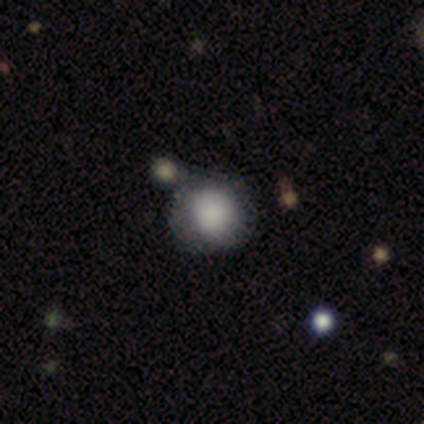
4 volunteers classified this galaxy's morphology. Q: Smooth or featured?
A: smooth (50%); runner-up: featured or disk (25%)
Q: How rounded?
A: round (100%)
Q: Merging?
A: none (67%); runner-up: major disturbance (33%)